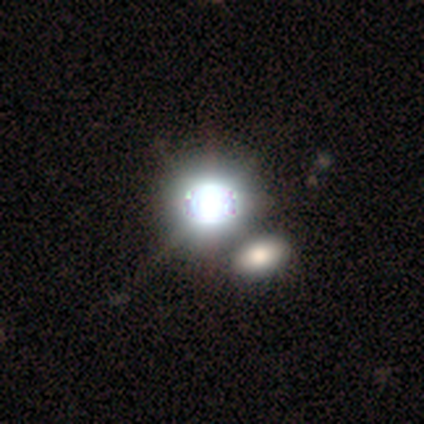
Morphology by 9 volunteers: Volunteers were most divided on "smooth or featured": star or artifact: 67%, smooth: 22%, featured or disk: 11%.